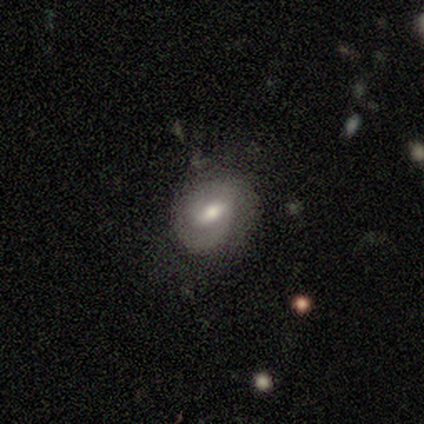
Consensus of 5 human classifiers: smooth-or-featured: featured or disk: 80% | smooth: 20% | star or artifact: 0%
  disk-edge-on: no: 75% | yes: 25%
    bar: strong: 67% | weak: 33% | no: 0%
    has-spiral-arms: yes: 100% | no: 0%
      spiral-winding: tight: 67% | loose: 33% | medium: 0%
      spiral-arm-count: 1: 33% (tied) | 2: 33% (tied) | can't tell: 33% (tied) | 3: 0% | 4: 0% | more than 4: 0%
    bulge-size: large: 33% (tied) | moderate: 33% (tied) | small: 33% (tied) | dominant: 0% | none: 0%
  merging: none: 60% | minor disturbance: 20% | merger: 20% | major disturbance: 0%